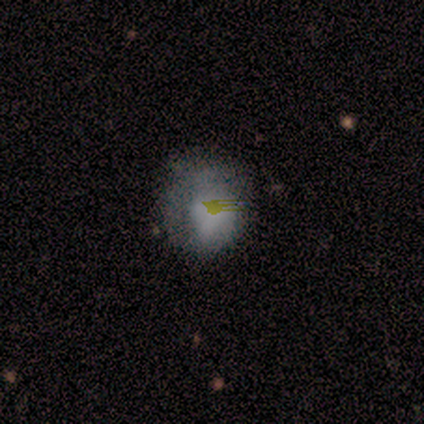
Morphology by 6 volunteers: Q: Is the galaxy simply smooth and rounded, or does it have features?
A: smooth — 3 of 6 (50%).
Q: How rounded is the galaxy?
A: round — 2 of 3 (67%).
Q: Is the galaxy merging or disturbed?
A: minor disturbance — 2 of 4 (50%).